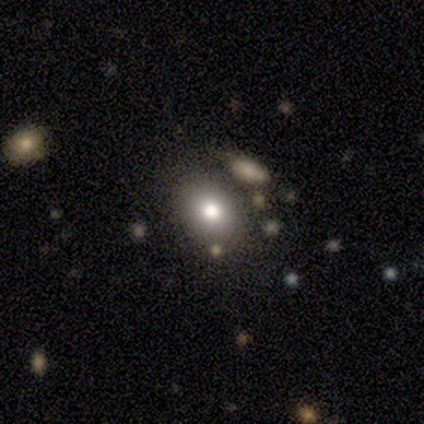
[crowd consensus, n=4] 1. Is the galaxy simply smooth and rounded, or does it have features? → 75% smooth, 25% star or artifact, 0% featured or disk.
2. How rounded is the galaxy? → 67% round, 33% in between, 0% cigar-shaped.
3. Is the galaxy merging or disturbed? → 100% none, 0% minor disturbance, 0% major disturbance, 0% merger.